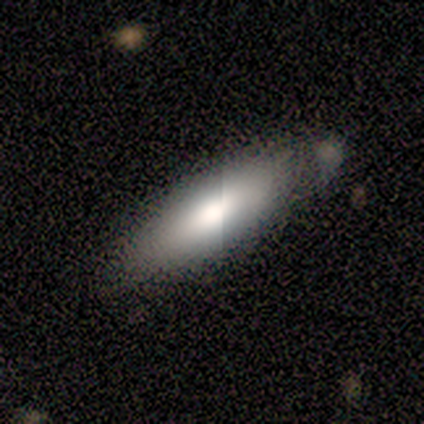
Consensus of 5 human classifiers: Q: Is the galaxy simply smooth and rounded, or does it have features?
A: smooth — 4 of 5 (80%).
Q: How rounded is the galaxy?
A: in between — 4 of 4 (100%).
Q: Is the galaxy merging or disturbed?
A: none — 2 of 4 (50%, tied with minor disturbance).